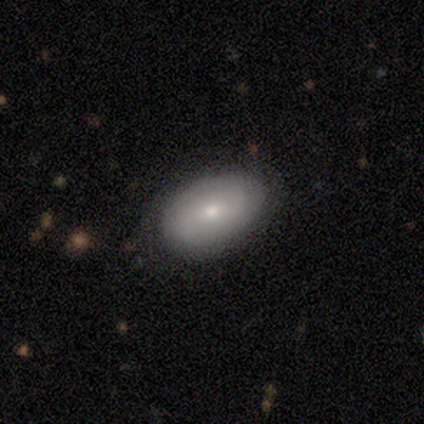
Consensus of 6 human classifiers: Volunteers were most divided on "smooth or featured" (2-way tie): smooth: 50%, featured or disk: 50%, star or artifact: 0%. More confident: how rounded — in between (100%); merging — none (100%).